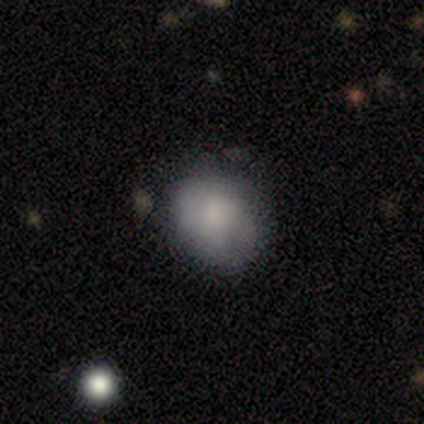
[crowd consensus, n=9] This is clearly a smooth galaxy (100%). How rounded: likely round (67%). Merging: clearly none (89%).